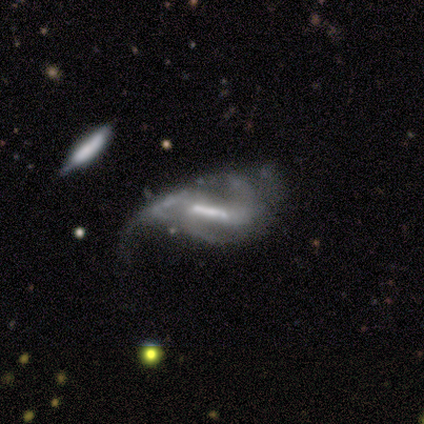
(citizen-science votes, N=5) Smooth or featured: featured or disk — 80% (smooth — 20%)
Edge-on disk: no — 100%
Bar: strong — 100%
Spiral arms: yes — 100%
Spiral winding: loose — 75% (medium — 25%)
Spiral arm count: 1 — 50% (tied with 2 — 50%)
Bulge size: large — 25% (tied with moderate — 25%; small — 25%; none — 25%)
Merging: major disturbance — 60% (none — 20%)